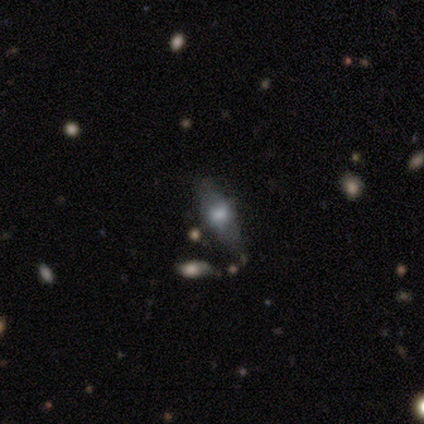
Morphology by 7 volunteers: This is marginally a smooth galaxy (43%). How rounded: likely cigar-shaped (67%). Merging: likely none (60%).